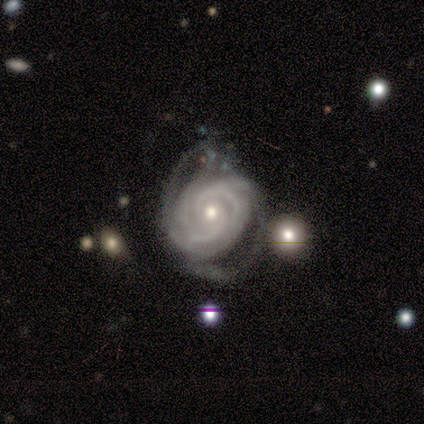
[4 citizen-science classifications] Smooth or featured?
  - featured or disk: 100% *
  - smooth: 0%
  - star or artifact: 0%
Edge-on disk?
  - no: 75% *
  - yes: 25%
Bar?
  - strong: 33% * (tied)
  - weak: 33% * (tied)
  - no: 33% * (tied)
Spiral arms?
  - yes: 100% *
  - no: 0%
Spiral winding?
  - tight: 100% *
  - medium: 0%
  - loose: 0%
Spiral arm count?
  - 3: 67% *
  - 2: 33%
  - 1: 0%
  - 4: 0%
  - more than 4: 0%
  - can't tell: 0%
Bulge size?
  - small: 67% *
  - moderate: 33%
  - dominant: 0%
  - large: 0%
  - none: 0%
Merging?
  - minor disturbance: 50% * (tied)
  - major disturbance: 50% * (tied)
  - none: 0%
  - merger: 0%